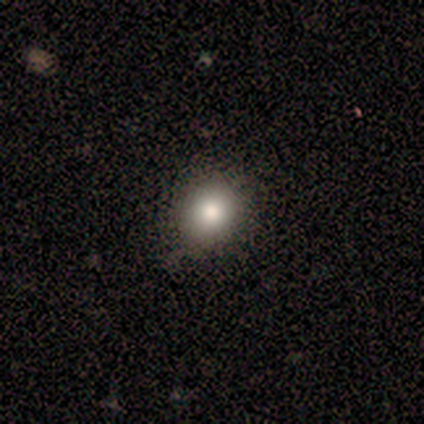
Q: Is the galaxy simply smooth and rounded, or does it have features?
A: smooth — 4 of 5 (80%).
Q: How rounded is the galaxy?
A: round — 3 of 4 (75%).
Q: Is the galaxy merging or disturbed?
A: none — 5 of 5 (100%).